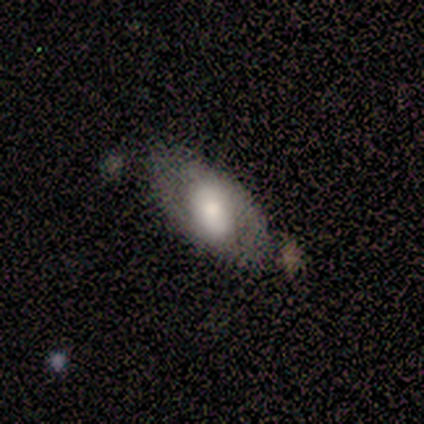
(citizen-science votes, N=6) Smooth or featured? 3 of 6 (50%) said smooth. How rounded? 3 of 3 (100%) said in between. Merging? 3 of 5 (60%) said none.